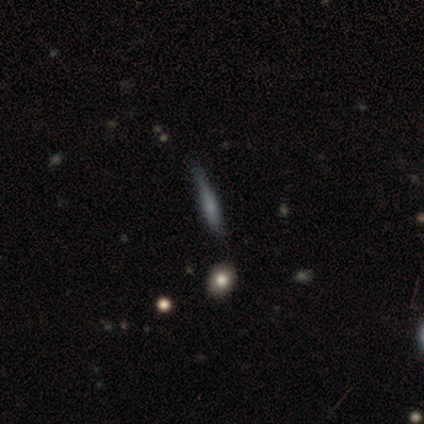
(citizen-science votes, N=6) Smooth or featured? smooth (50%, tied with featured or disk)
How rounded? cigar-shaped (100%)
Merging? none (67%)